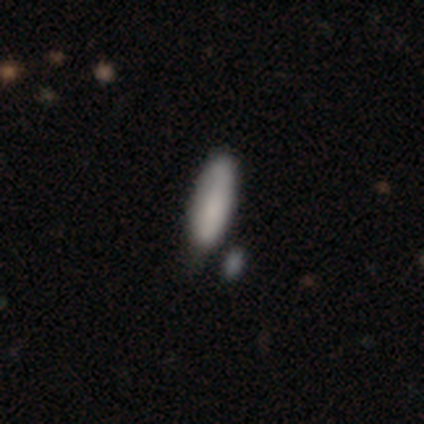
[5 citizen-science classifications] This appears to be a smooth galaxy with no disk features (100%) that is in between round and cigar-shaped (100%). Merging: minor disturbance (60%).